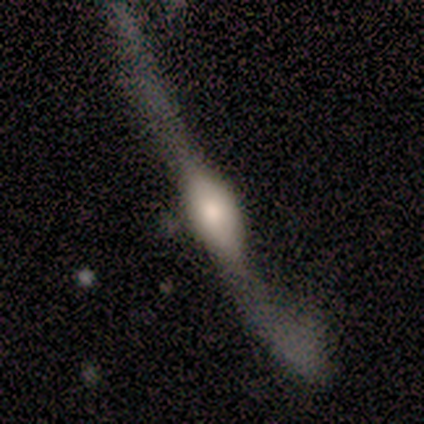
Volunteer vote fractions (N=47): A featured or disk galaxy (66%) viewed edge-on (65%) with a rounded central bulge (90%). Merging: major disturbance (60%).